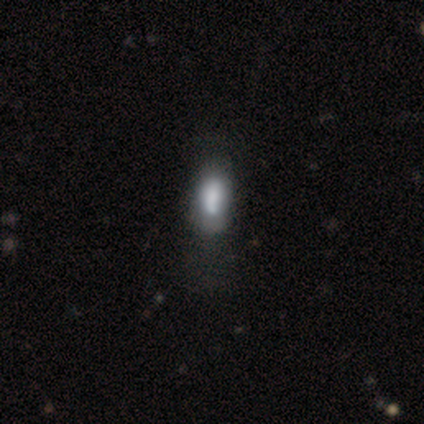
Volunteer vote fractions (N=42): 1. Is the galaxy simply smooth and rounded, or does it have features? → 62% smooth, 26% featured or disk, 12% star or artifact.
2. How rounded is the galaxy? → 73% in between, 27% cigar-shaped, 0% round.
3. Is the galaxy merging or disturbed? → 68% none, 22% minor disturbance, 11% major disturbance, 0% merger.